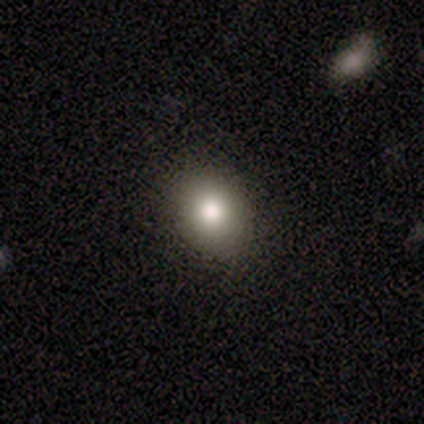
This appears to be a smooth galaxy with no disk features (100%) that is round (75%). Merging: none (75%).